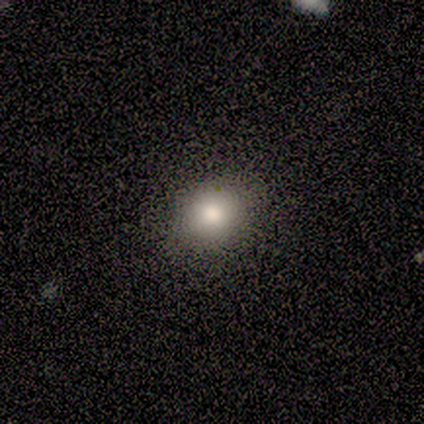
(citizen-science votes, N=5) Smooth or featured? 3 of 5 (60%) said smooth. How rounded? 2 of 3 (67%) said round. Merging? 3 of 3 (100%) said none.